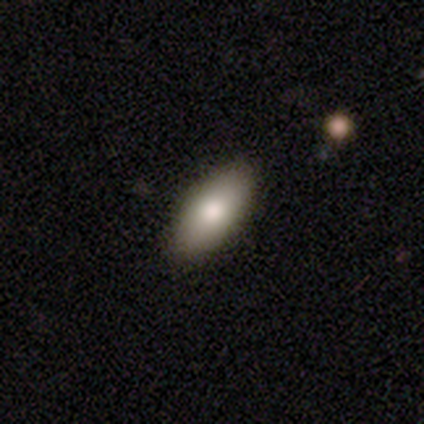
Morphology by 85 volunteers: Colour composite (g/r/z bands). It shows a smooth galaxy with no disk features (88%) that is in between round and cigar-shaped (89%). Merging: none (88%).